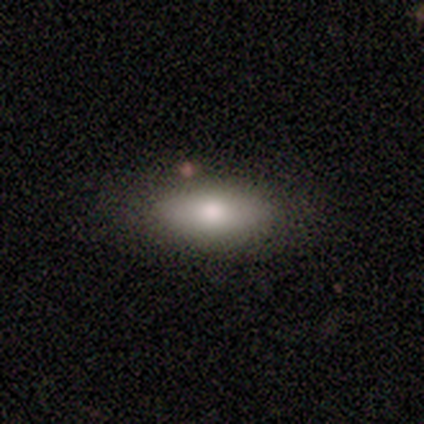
A smooth galaxy with no disk features (100%) that is in between round and cigar-shaped (100%). Merging: none (100%).